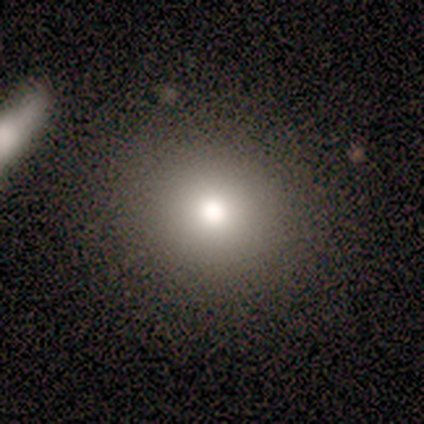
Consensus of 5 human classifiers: smooth-or-featured: smooth: 40% (tied) | star or artifact: 40% (tied) | featured or disk: 20%
  how-rounded: round: 50% (tied) | in between: 50% (tied) | cigar-shaped: 0%
  merging: none: 67% | minor disturbance: 33% | major disturbance: 0% | merger: 0%